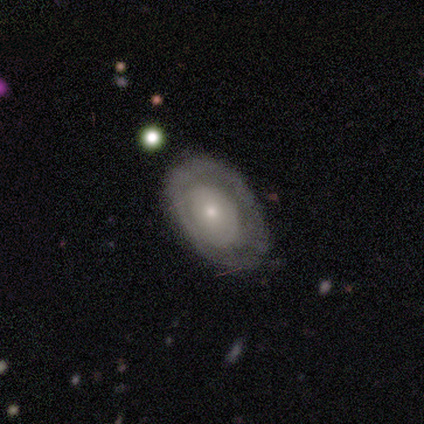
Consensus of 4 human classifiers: Q: Smooth or featured?
A: smooth (50%); tied with: featured or disk (50%)
Q: How rounded?
A: in between (100%)
Q: Merging?
A: none (75%); runner-up: minor disturbance (25%)